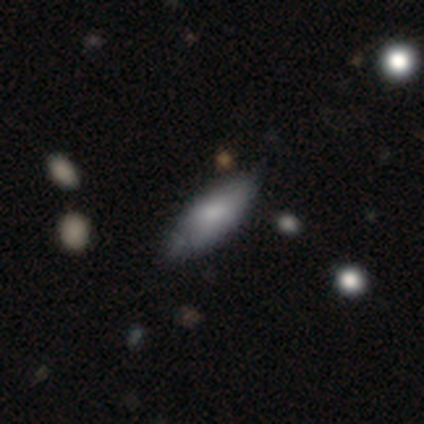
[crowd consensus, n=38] Morphology: type=smooth (66%); roundness=in between (76%); merging=none (61%).